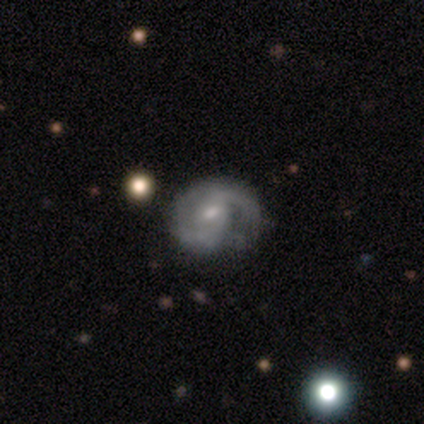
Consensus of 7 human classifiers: Smooth or featured? 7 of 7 (100%) said featured or disk. Edge-on disk? 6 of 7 (86%) said no. Bar? 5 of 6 (83%) said weak. Spiral arms? 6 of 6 (100%) said yes. Spiral winding? 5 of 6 (83%) said medium. Spiral arm count? 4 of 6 (67%) said 2. Bulge size? 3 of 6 (50%, tied with small) said moderate. Merging? 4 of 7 (57%) said none.